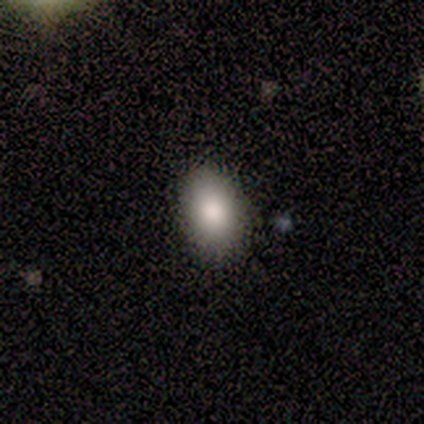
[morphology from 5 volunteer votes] A smooth galaxy with no disk features (80%) that is in between round and cigar-shaped (75%). Merging: none (100%).